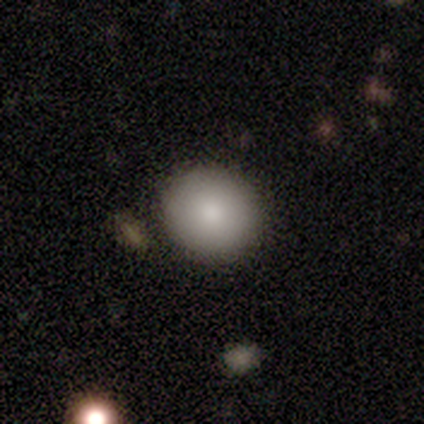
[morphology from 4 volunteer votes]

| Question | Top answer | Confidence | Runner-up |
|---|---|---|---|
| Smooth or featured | smooth | 100% | — |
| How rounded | round | 100% | — |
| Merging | none | 100% | — |